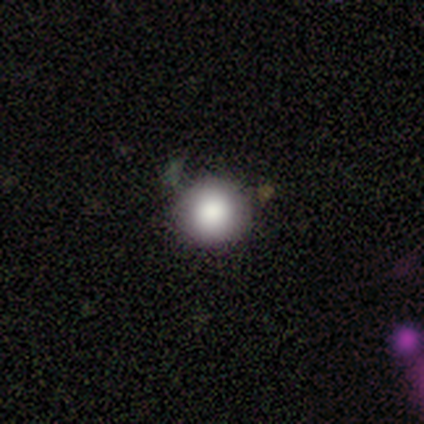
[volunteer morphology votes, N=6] This is clearly a smooth galaxy (83%). How rounded: clearly round (100%). Merging: clearly none (80%).